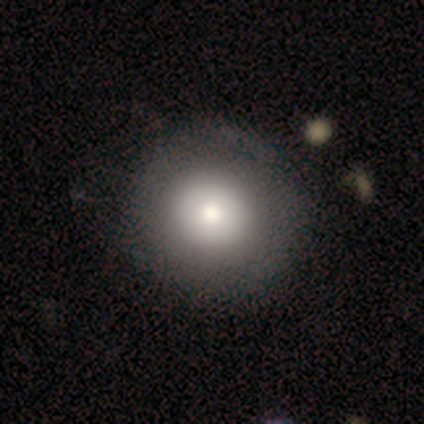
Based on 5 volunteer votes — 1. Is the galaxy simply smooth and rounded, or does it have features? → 80% smooth, 20% featured or disk, 0% star or artifact.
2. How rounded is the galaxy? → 100% round, 0% in between, 0% cigar-shaped.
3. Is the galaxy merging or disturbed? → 100% none, 0% minor disturbance, 0% major disturbance, 0% merger.